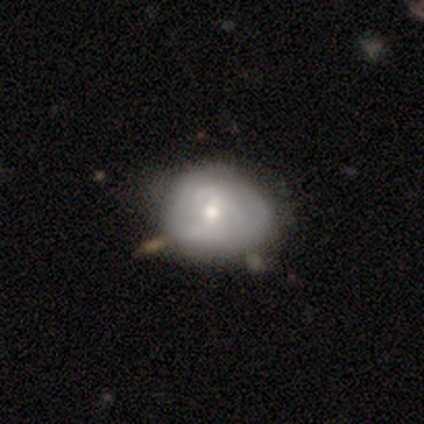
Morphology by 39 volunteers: A featured or disk galaxy (51%) with no bar (50%), no spiral arms (55%) and a moderate central bulge (45%, tied with small). Merging: none (42%).